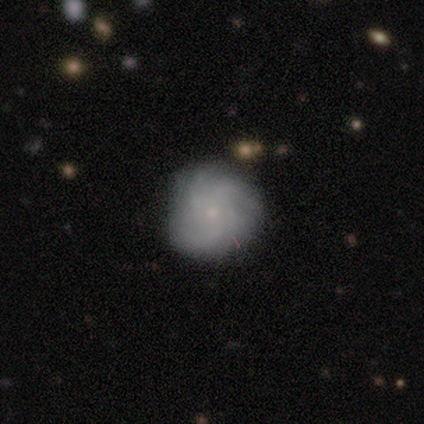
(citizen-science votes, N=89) smooth_or_featured: featured or disk (p=0.69) [alt: smooth p=0.19]
disk_edge_on: no (p=1.00)
bar: no (p=0.82) [alt: weak p=0.13]
has_spiral_arms: yes (p=0.97) [alt: no p=0.03]
spiral_winding: medium (p=0.54) [alt: tight p=0.37]
spiral_arm_count: 4 (p=0.41) [alt: can't tell p=0.29]
bulge_size: small (p=0.82) [alt: moderate p=0.18]
merging: none (p=0.77) [alt: minor disturbance p=0.21]